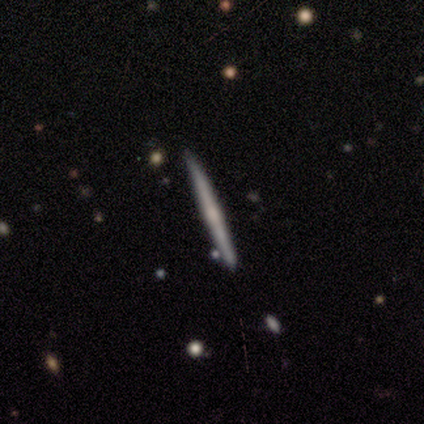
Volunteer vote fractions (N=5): This appears to be a featured or disk galaxy (80%) viewed edge-on (100%) with no central bulge (50%, tied with rounded). Merging: none (100%).